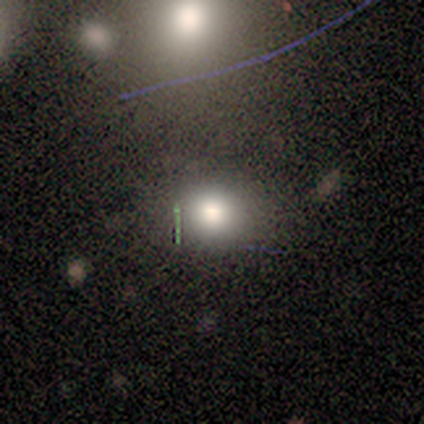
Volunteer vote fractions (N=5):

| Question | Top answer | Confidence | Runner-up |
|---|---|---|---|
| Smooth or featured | smooth | 100% | — |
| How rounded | round | 60% | in between (40%) |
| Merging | none | 80% | minor disturbance (20%) |